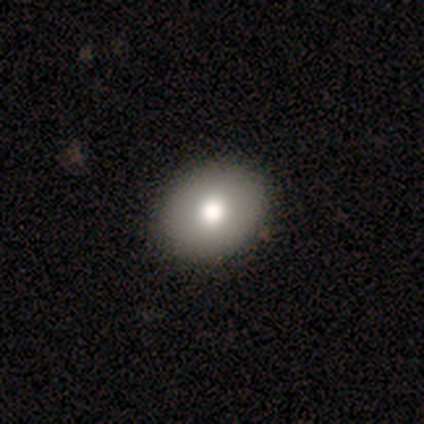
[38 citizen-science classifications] This appears to be a smooth galaxy with no disk features (87%) that is round (52%). Merging: none (63%).